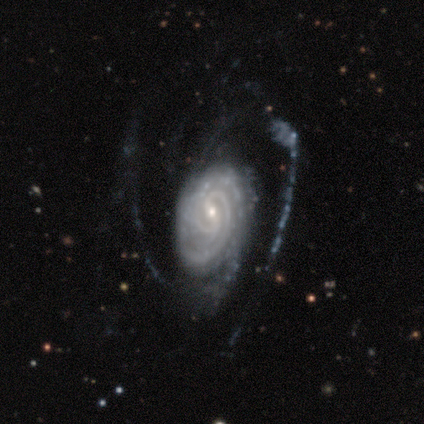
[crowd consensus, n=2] featured or disk 100%, smooth 0%, star or artifact 0%. Down the decision tree: edge-on disk — no (100%); bar — weak (100%); spiral arms — yes (100%); spiral arm count — 2 (50%, tied with can't tell); spiral winding — medium (100%); bulge size — small (100%); merging — major disturbance (100%).